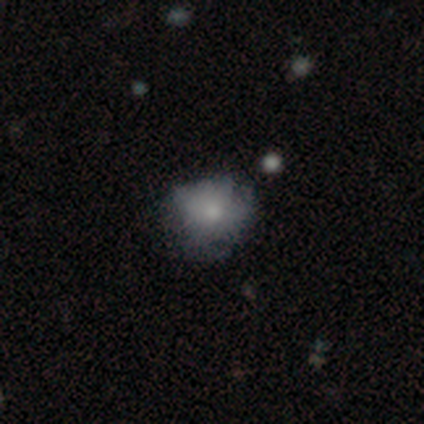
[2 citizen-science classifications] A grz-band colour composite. It shows a smooth galaxy with no disk features (100%) that is round (100%). Merging: none (100%).